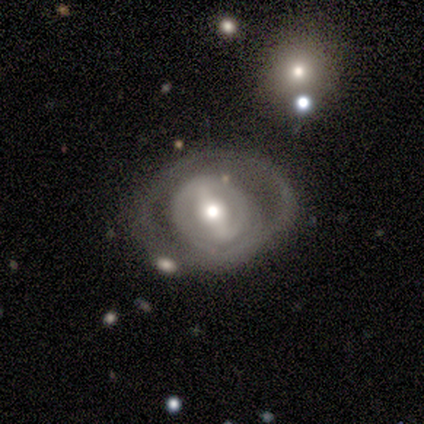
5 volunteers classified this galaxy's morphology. This is clearly a featured or disk galaxy (100%). It is clearly not viewed edge-on (100%). Bar: likely strong (60%). Spiral arm pattern: likely no (60%). Central bulge: marginally moderate (40%, tied with small). Merging: likely none (60%).